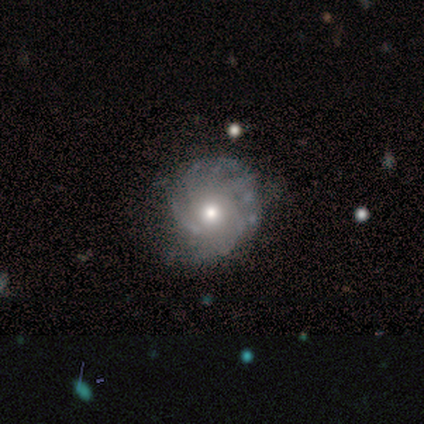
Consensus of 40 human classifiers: This is clearly a featured or disk galaxy (85%). It is clearly not viewed edge-on (100%). Bar: clearly no (88%). Spiral arm pattern: clearly yes (85%). Spiral arm count: marginally can't tell (31%). Spiral winding: possibly tight (48%, tied with medium). Central bulge: likely moderate (74%). Merging: possibly none (51%).